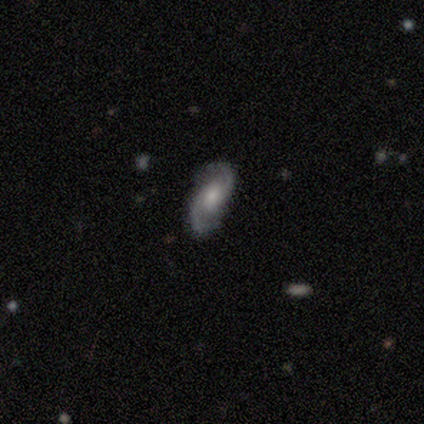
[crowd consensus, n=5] This is clearly a featured or disk galaxy (80%). It is clearly not viewed edge-on (100%). Bar: likely no (75%). Spiral arm pattern: clearly yes (100%). Spiral arm count: clearly 2 (100%). Spiral winding: likely medium (75%). Central bulge: possibly moderate (50%, tied with small). Merging: clearly none (100%).